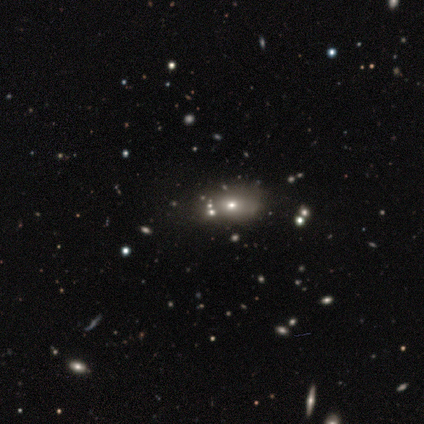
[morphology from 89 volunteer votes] Smooth or featured?
  - smooth: 42% *
  - star or artifact: 34%
  - featured or disk: 25%
How rounded?
  - in between: 65% *
  - round: 24%
  - cigar-shaped: 11%
Merging?
  - none: 56% *
  - merger: 19%
  - minor disturbance: 17%
  - major disturbance: 8%